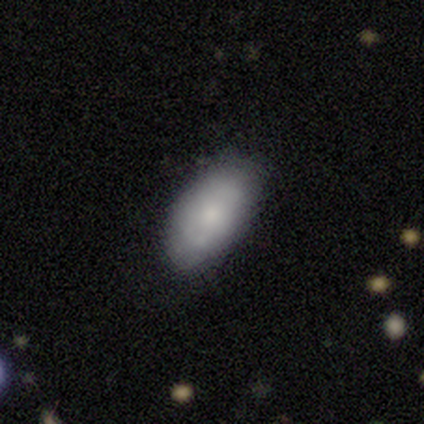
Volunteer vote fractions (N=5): smooth 100%, featured or disk 0%, star or artifact 0%. Down the decision tree: how rounded — in between (100%); merging — none (80%).